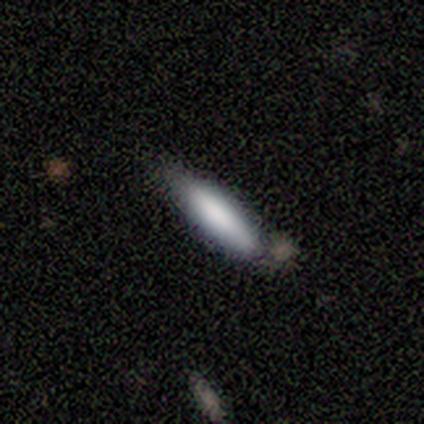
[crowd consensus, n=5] A smooth galaxy with no disk features (60%) that is cigar-shaped (67%).

Vote fractions:
- Smooth or featured? smooth: 60% / featured or disk: 20% / star or artifact: 20%
- How rounded? cigar-shaped: 67% / in between: 33% / round: 0%
- Merging? minor disturbance: 75% / none: 25% / major disturbance: 0% / merger: 0%